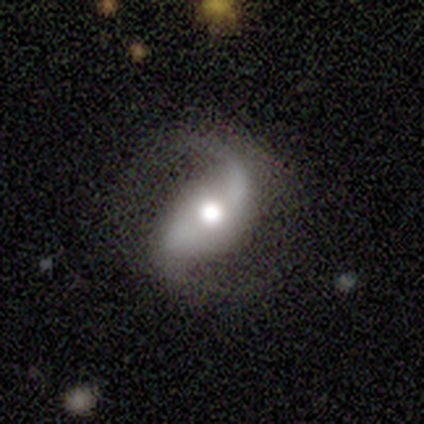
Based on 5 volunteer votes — Smooth or featured: featured or disk — 100%
Edge-on disk: no — 100%
Bar: no — 60% (weak — 40%)
Spiral arms: yes — 100%
Spiral winding: loose — 60% (tight — 20%)
Spiral arm count: 2 — 100%
Bulge size: moderate — 80% (dominant — 20%)
Merging: none — 100%